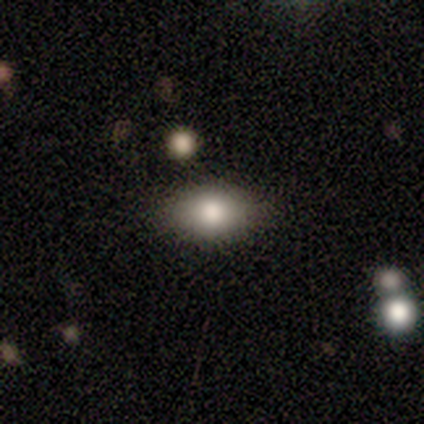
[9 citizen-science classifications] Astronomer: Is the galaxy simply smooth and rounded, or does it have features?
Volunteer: smooth — 78%.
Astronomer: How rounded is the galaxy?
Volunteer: in between — 86%.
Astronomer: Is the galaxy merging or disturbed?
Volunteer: none — 100%.